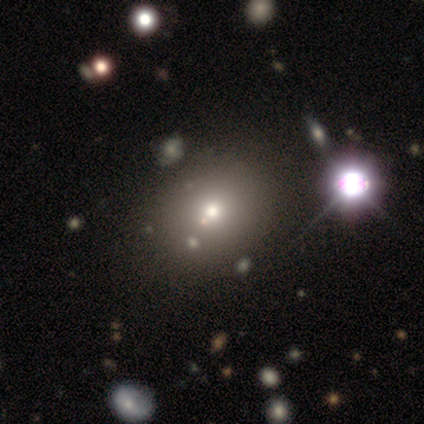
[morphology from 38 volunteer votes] smooth_or_featured: smooth (p=0.68) [alt: star or artifact p=0.18]
how_rounded: round (p=0.73) [alt: in between p=0.27]
merging: none (p=0.55) [alt: merger p=0.10]